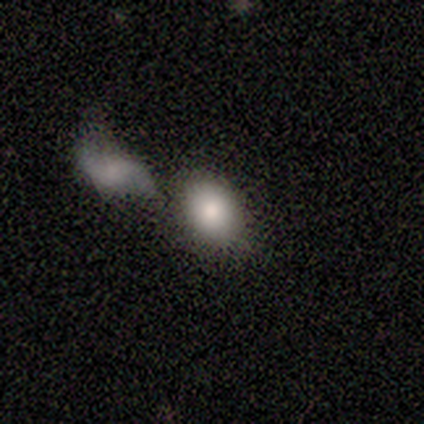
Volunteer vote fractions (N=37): Smooth or featured? 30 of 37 (81%) said smooth. How rounded? 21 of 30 (70%) said in between. Merging? 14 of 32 (44%) said merger.